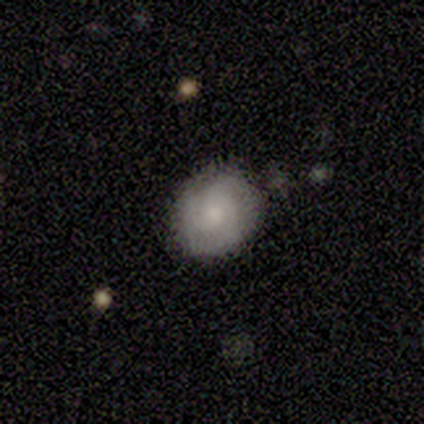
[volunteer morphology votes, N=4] smooth_or_featured: smooth (p=0.75) [alt: featured or disk p=0.25]
how_rounded: in between (p=0.67) [alt: round p=0.33]
merging: none (p=1.00)